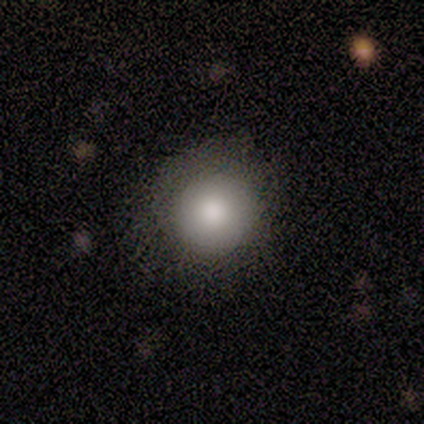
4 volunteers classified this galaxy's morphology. smooth_or_featured: smooth (p=0.75) [alt: star or artifact p=0.25]
how_rounded: round (p=1.00)
merging: none (p=0.67) [alt: merger p=0.33]